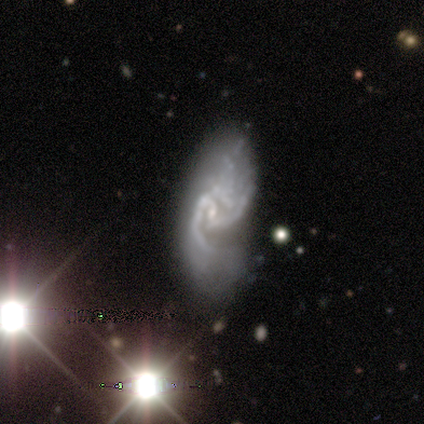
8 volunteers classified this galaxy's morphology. smooth-or-featured: featured or disk: 100% | smooth: 0% | star or artifact: 0%
  disk-edge-on: no: 88% | yes: 12%
    bar: weak: 57% | no: 43% | strong: 0%
    has-spiral-arms: yes: 86% | no: 14%
      spiral-winding: medium: 67% | loose: 33% | tight: 0%
      spiral-arm-count: 2: 67% | 3: 33% | 1: 0% | 4: 0% | more than 4: 0% | can't tell: 0%
    bulge-size: small: 71% | moderate: 14% | none: 14% | dominant: 0% | large: 0%
  merging: none: 38% (tied) | major disturbance: 38% (tied) | minor disturbance: 25% | merger: 0%